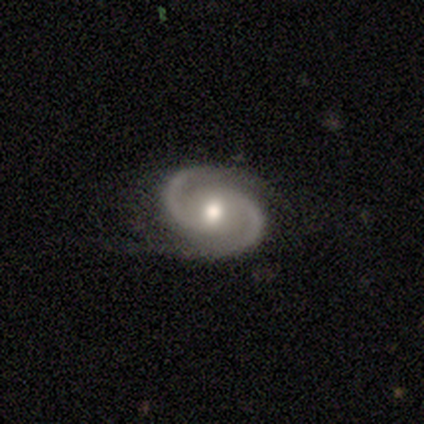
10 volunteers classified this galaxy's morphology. smooth-or-featured: featured or disk: 90% | smooth: 10% | star or artifact: 0%
  disk-edge-on: no: 100% | yes: 0%
    bar: no: 67% | weak: 33% | strong: 0%
    has-spiral-arms: yes: 100% | no: 0%
      spiral-winding: medium: 56% | tight: 44% | loose: 0%
      spiral-arm-count: 2: 100% | 1: 0% | 3: 0% | 4: 0% | more than 4: 0% | can't tell: 0%
    bulge-size: moderate: 56% | small: 33% | large: 11% | dominant: 0% | none: 0%
  merging: none: 50% | minor disturbance: 30% | major disturbance: 20% | merger: 0%